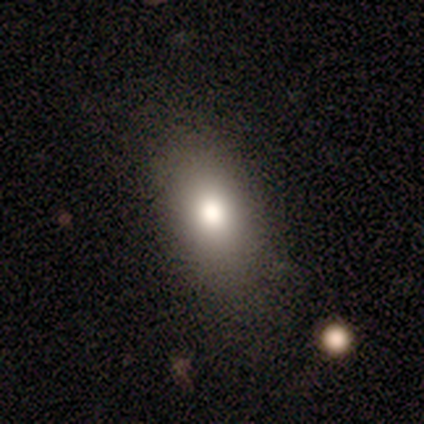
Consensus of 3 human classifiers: This appears to be a smooth galaxy with no disk features (100%) that is in between round and cigar-shaped (100%). Merging: none (100%).